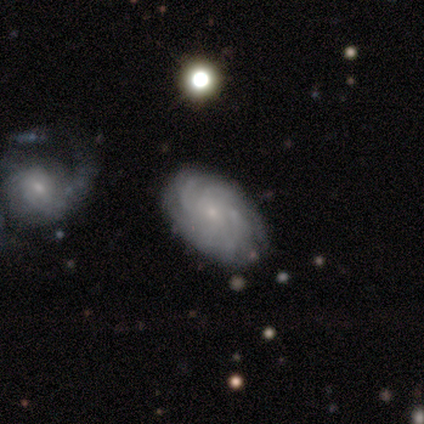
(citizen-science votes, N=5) smooth-or-featured: featured or disk: 80% | star or artifact: 20% | smooth: 0%
  disk-edge-on: no: 100% | yes: 0%
    bar: no: 75% | weak: 25% | strong: 0%
    has-spiral-arms: yes: 100% | no: 0%
      spiral-winding: tight: 100% | medium: 0% | loose: 0%
      spiral-arm-count: can't tell: 75% | 4: 25% | 1: 0% | 2: 0% | 3: 0% | more than 4: 0%
    bulge-size: small: 100% | dominant: 0% | large: 0% | moderate: 0% | none: 0%
  merging: none: 75% | minor disturbance: 25% | major disturbance: 0% | merger: 0%